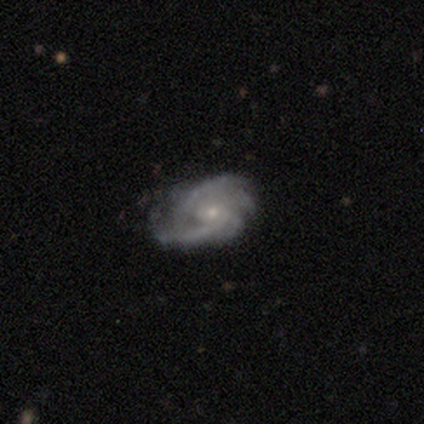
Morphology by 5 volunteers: Volunteers were most divided on "spiral arm count": can't tell: 50%, 2: 25%, 3: 25%, 1: 0%, 4: 0%, more than 4: 0%. More confident: edge-on disk — no (100%); spiral arms — yes (100%); smooth or featured — featured or disk (80%); merging — none (80%); bar — no (75%); spiral winding — medium (75%); bulge size — small (75%).